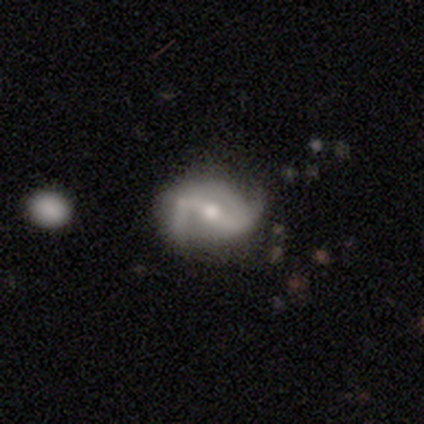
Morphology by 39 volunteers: Smooth or featured: featured or disk — 87% (smooth — 10%)
Edge-on disk: no — 97% (yes — 3%)
Bar: strong — 55% (weak — 36%)
Spiral arms: yes — 94% (no — 6%)
Spiral winding: loose — 58% (medium — 35%)
Spiral arm count: 2 — 84% (1 — 6%)
Bulge size: moderate — 55% (small — 42%)
Merging: none — 39% (minor disturbance — 26%)